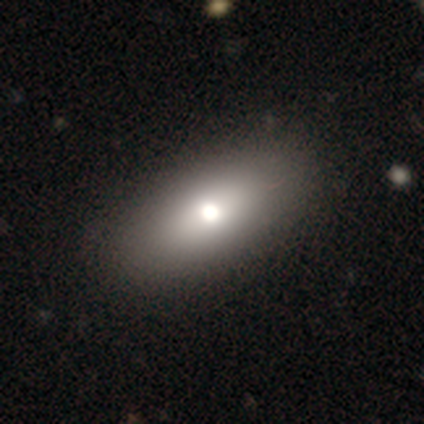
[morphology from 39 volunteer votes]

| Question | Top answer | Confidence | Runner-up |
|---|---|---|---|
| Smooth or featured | smooth | 54% | featured or disk (41%) |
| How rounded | in between | 71% | round (14%) |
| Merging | none | 86% | minor disturbance (14%) |